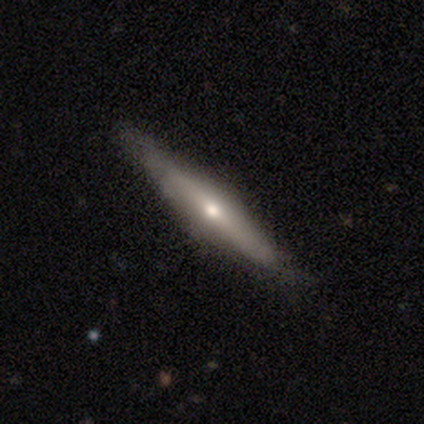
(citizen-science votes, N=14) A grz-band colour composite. It shows a featured or disk galaxy (64%) viewed edge-on (100%) with a rounded central bulge (89%). Merging: none (67%).